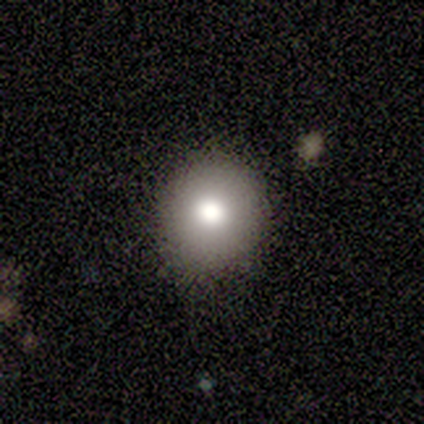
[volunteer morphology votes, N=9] smooth_or_featured: smooth (p=0.78) [alt: featured or disk p=0.11]
how_rounded: round (p=1.00)
merging: none (p=0.88) [alt: minor disturbance p=0.12]